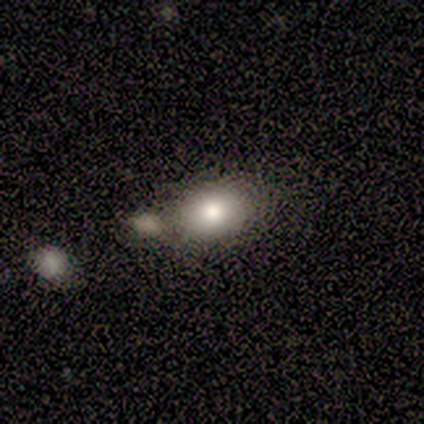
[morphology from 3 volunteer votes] This appears to be a smooth galaxy with no disk features (100%) that is in between round and cigar-shaped (67%). Merging: none (100%).